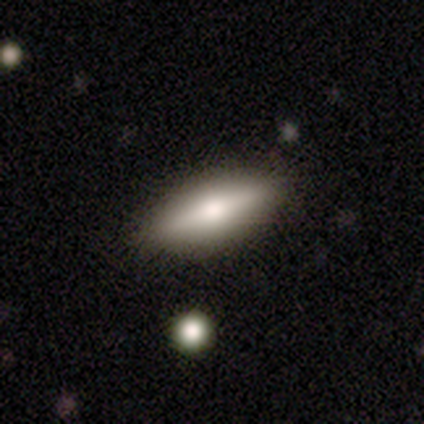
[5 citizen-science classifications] Smooth or featured: smooth — 80% (featured or disk — 20%)
How rounded: in between — 75% (cigar-shaped — 25%)
Merging: none — 100%